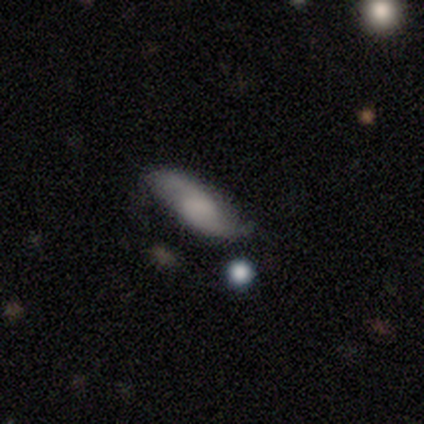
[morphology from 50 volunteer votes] This appears to be a featured or disk galaxy (56%) with a weak bar (52%), 2 (85%) loose (50%) spiral arms (95%) and no central bulge (33%). Merging: none (65%).